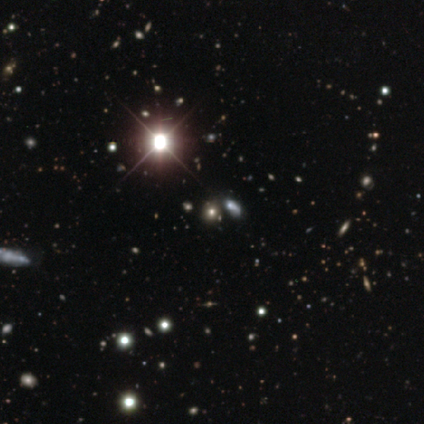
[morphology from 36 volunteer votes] This is likely a star or artifact rather than a galaxy (64%).